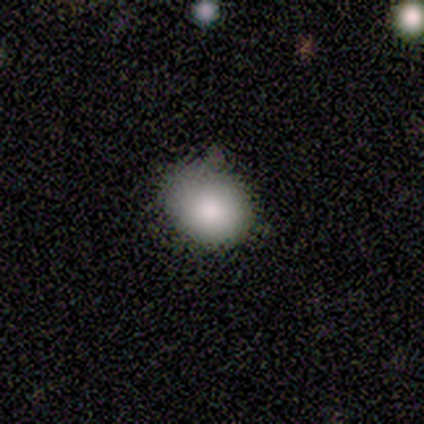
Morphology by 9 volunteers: A smooth galaxy with no disk features (78%) that is round (86%). Merging: none (62%).